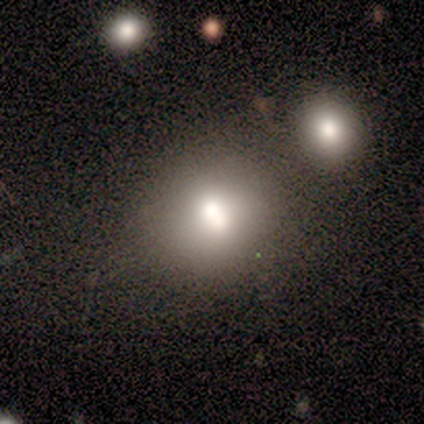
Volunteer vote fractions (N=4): smooth-or-featured: smooth: 100% | featured or disk: 0% | star or artifact: 0%
  how-rounded: round: 75% | in between: 25% | cigar-shaped: 0%
  merging: none: 50% (tied) | merger: 50% (tied) | minor disturbance: 0% | major disturbance: 0%